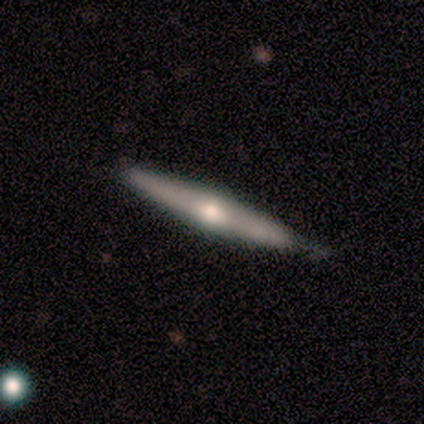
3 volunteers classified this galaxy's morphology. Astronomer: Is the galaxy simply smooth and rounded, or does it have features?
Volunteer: featured or disk — 67%.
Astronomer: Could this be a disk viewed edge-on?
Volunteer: yes — 100%.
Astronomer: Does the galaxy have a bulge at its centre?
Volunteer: rounded — 100%.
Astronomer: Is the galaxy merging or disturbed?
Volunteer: none — 67%.